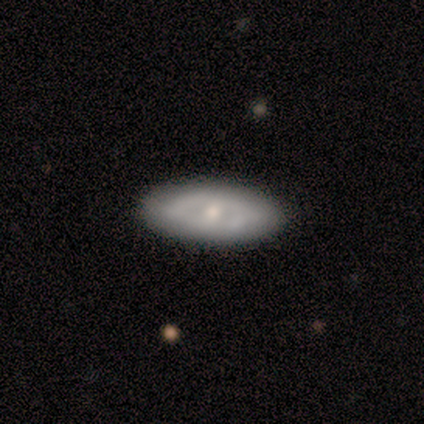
This is likely a smooth galaxy (60%). How rounded: likely in between (67%). Merging: likely none (75%).